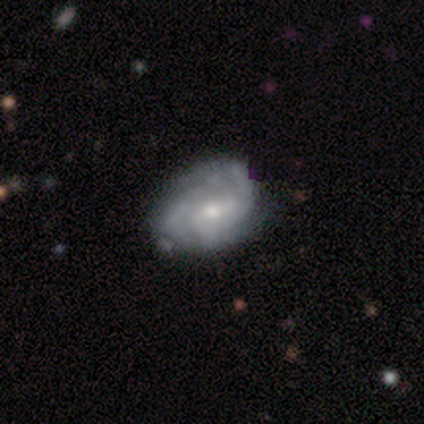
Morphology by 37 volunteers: smooth_or_featured: featured or disk (p=0.86) [alt: smooth p=0.14]
disk_edge_on: no (p=1.00)
bar: no (p=0.44) [alt: weak p=0.41]
has_spiral_arms: yes (p=0.94) [alt: no p=0.06]
spiral_winding: tight (p=0.63) [alt: medium p=0.30]
spiral_arm_count: 3 (p=0.37) [tied with: can't tell p=0.37]
bulge_size: moderate (p=0.59) [alt: small p=0.38]
merging: none (p=0.68) [alt: minor disturbance p=0.27]